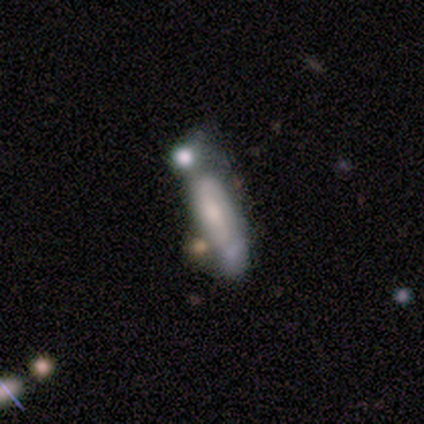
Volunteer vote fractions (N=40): smooth-or-featured: featured or disk: 65% | smooth: 28% | star or artifact: 8%
  disk-edge-on: no: 81% | yes: 19%
    bar: weak: 43% | no: 38% | strong: 19%
    has-spiral-arms: yes: 62% | no: 38%
      spiral-winding: tight: 38% | medium: 31% | loose: 31%
      spiral-arm-count: 2: 69% | 1: 15% | can't tell: 15% | 3: 0% | 4: 0% | more than 4: 0%
    bulge-size: small: 48% | moderate: 33% | none: 14% | large: 5% | dominant: 0%
  merging: merger: 38% | minor disturbance: 27% | major disturbance: 19% | none: 16%